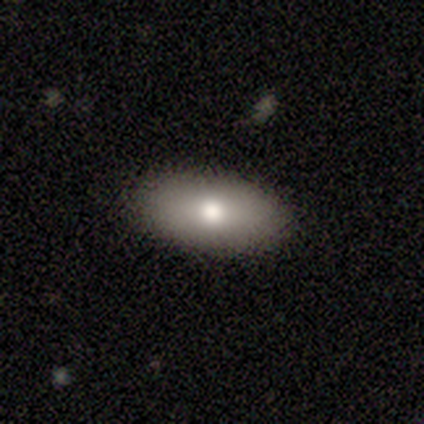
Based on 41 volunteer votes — Overall: smooth (68%). How rounded: in between (96%). Merging: none (94%).